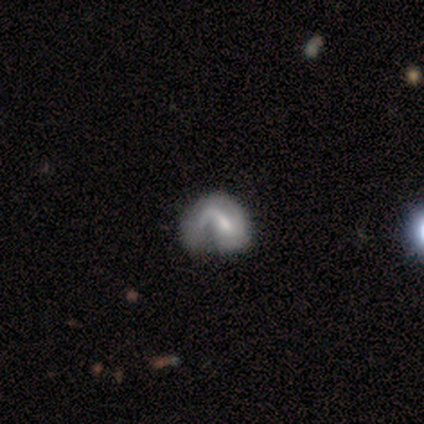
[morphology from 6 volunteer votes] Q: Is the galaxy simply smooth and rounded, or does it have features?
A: featured or disk — 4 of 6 (67%).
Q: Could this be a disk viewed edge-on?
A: no — 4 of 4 (100%).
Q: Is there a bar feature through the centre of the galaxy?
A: strong — 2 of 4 (50%).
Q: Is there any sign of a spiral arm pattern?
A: yes — 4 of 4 (100%).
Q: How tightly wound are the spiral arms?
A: medium — 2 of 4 (50%).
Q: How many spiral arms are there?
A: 1 — 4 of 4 (100%).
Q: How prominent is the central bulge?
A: moderate — 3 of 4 (75%).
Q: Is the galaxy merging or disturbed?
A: none — 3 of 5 (60%).